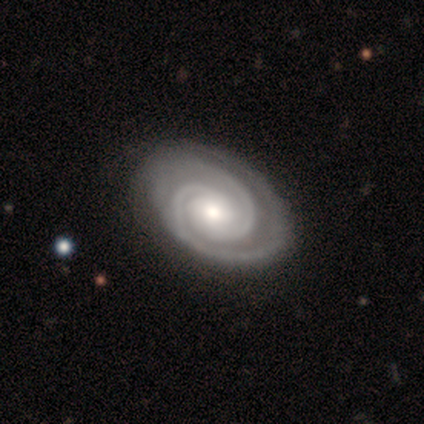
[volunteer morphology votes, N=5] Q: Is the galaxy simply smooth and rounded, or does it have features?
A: featured or disk — 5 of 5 (100%).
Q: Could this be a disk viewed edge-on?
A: no — 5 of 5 (100%).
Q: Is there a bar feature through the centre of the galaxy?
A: no — 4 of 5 (80%).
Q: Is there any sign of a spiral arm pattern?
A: yes — 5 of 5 (100%).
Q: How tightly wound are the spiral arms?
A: tight — 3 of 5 (60%).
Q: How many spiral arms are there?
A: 2 — 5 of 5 (100%).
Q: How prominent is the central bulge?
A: moderate — 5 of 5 (100%).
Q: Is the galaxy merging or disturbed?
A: none — 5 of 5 (100%).